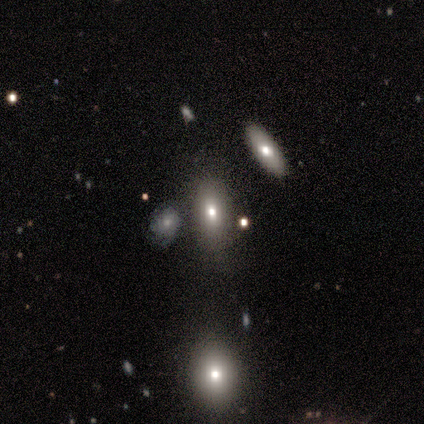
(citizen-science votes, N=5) star or artifact 80%, smooth 20%, featured or disk 0%.